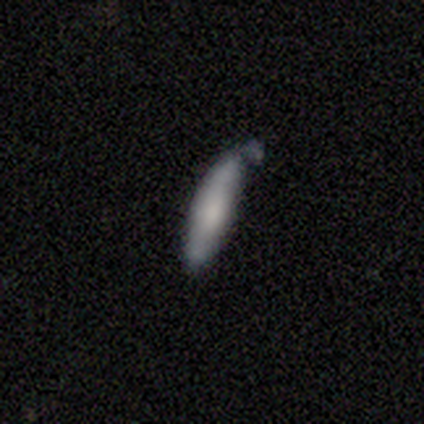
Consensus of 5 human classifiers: Smooth or featured? smooth (80%)
How rounded? cigar-shaped (100%)
Merging? none (40%, tied with minor disturbance)